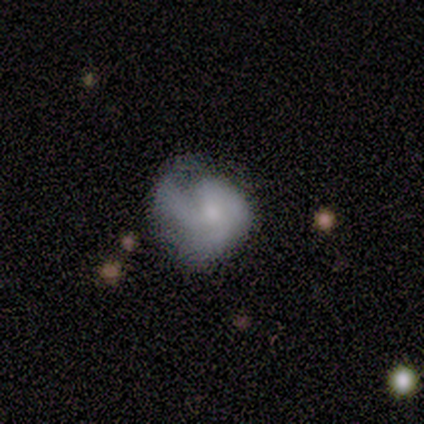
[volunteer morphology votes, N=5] featured or disk 60%, smooth 20%, star or artifact 20%. Down the decision tree: edge-on disk — no (100%); bar — no (67%); spiral arms — yes (67%); spiral arm count — 1 (100%); spiral winding — medium (50%, tied with loose); bulge size — small (100%); merging — minor disturbance (50%).